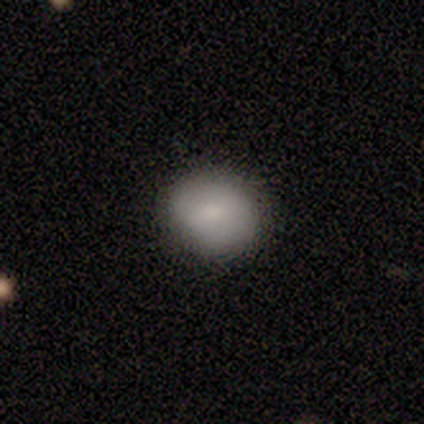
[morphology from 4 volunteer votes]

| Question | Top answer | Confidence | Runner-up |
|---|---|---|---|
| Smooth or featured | smooth | 75% | featured or disk (25%) |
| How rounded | in between | 67% | round (33%) |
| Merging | none | 75% | minor disturbance (25%) |